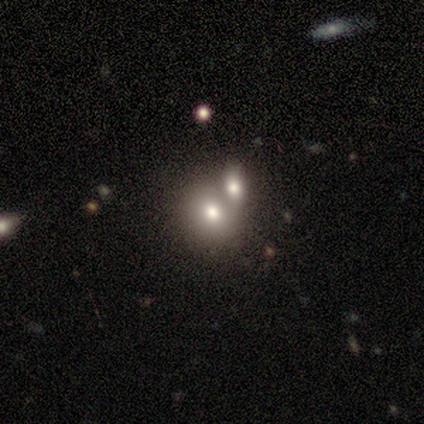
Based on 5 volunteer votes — This is likely a smooth galaxy (60%). How rounded: likely in between (67%). Merging: possibly merger (50%).